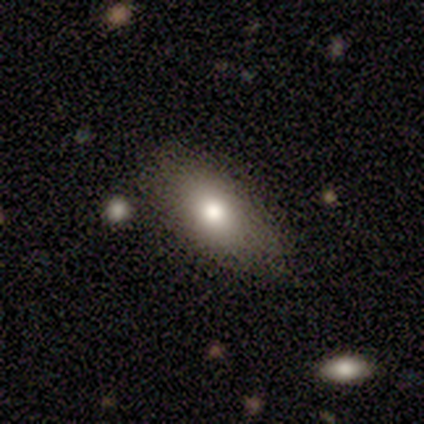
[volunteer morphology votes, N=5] Smooth or featured: smooth — 40% (tied with star or artifact — 40%)
How rounded: in between — 100%
Merging: minor disturbance — 67% (none — 33%)